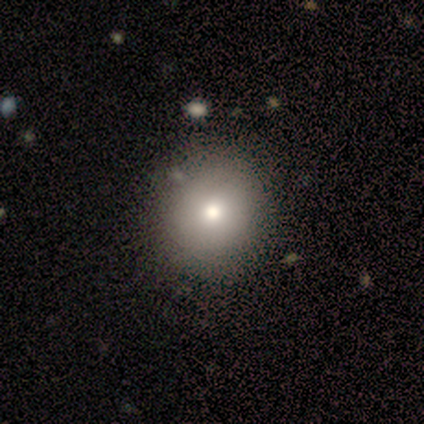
A smooth galaxy with no disk features (73%) that is round (100%). Merging: none (90%).